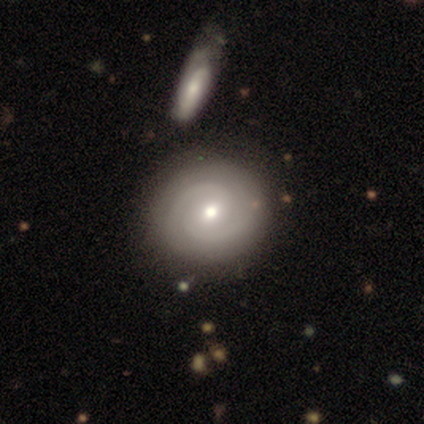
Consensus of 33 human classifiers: featured or disk 70%, smooth 24%, star or artifact 6%. Down the decision tree: edge-on disk — no (100%); bar — no (57%); spiral arms — yes (96%); spiral arm count — 2 (100%); spiral winding — medium (55%); bulge size — moderate (70%); merging — merger (45%).